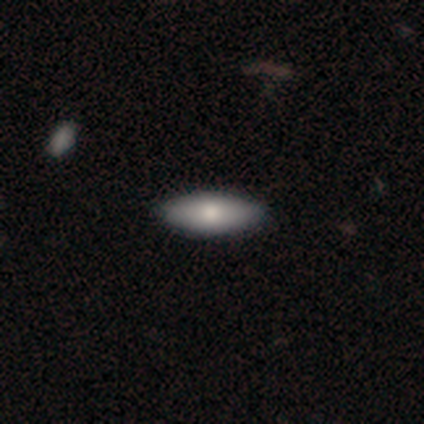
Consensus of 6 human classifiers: A smooth galaxy with no disk features (83%) that is in between round and cigar-shaped (80%).

Vote fractions:
- Smooth or featured? smooth: 83% / featured or disk: 17% / star or artifact: 0%
- How rounded? in between: 80% / cigar-shaped: 20% / round: 0%
- Merging? none: 100% / minor disturbance: 0% / major disturbance: 0% / merger: 0%